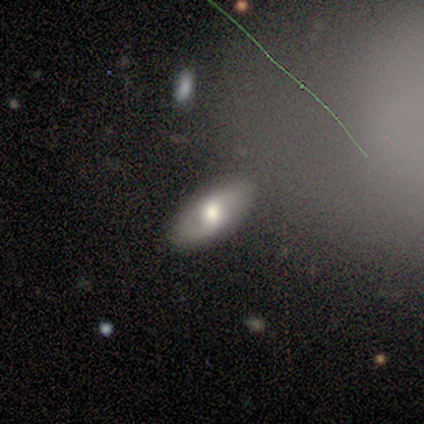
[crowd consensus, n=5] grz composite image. It shows a featured or disk galaxy (60%) with a weak bar (50%, tied with no), 2 (100%) medium (100%) spiral arms (100%) and a moderate central bulge (100%). Merging: none (100%).